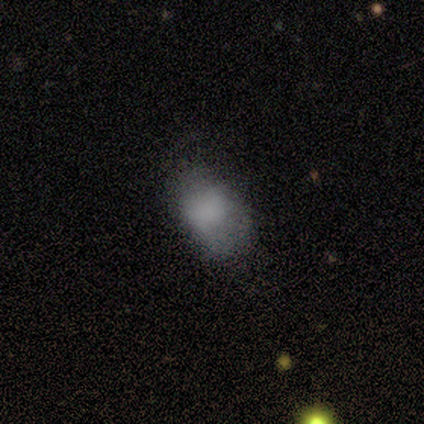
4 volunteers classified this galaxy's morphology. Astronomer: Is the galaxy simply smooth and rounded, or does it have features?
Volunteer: smooth — 100%.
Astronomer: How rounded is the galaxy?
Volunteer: in between — 100%.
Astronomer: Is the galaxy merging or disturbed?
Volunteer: none — 50%.